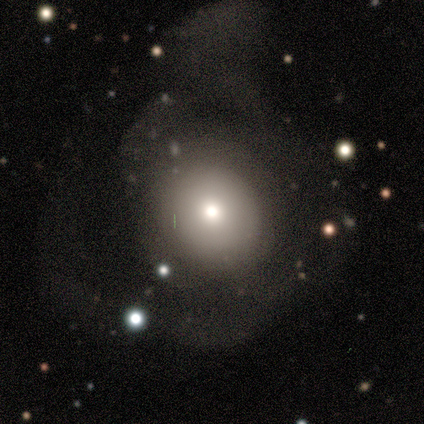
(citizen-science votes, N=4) Smooth or featured?
  - smooth: 50% * (tied)
  - featured or disk: 50% * (tied)
  - star or artifact: 0%
How rounded?
  - in between: 100% *
  - round: 0%
  - cigar-shaped: 0%
Merging?
  - major disturbance: 100% *
  - none: 0%
  - minor disturbance: 0%
  - merger: 0%